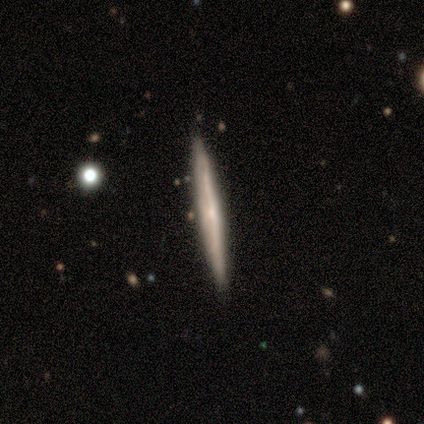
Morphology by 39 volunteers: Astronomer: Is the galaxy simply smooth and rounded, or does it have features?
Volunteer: featured or disk — 77%.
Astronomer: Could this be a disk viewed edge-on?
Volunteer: yes — 100%.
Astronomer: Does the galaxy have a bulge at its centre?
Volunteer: none — 60% (runner-up: rounded, 40%).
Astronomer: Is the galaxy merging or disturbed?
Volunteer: none — 55%.